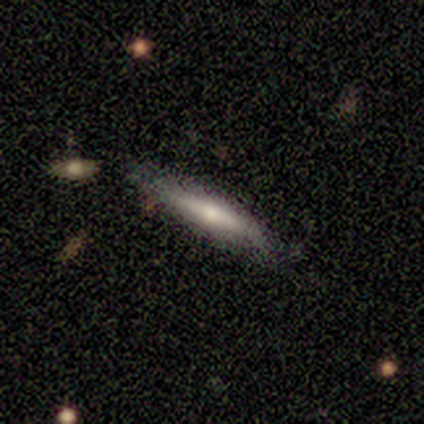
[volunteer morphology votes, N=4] smooth-or-featured: smooth: 100% | featured or disk: 0% | star or artifact: 0%
  how-rounded: cigar-shaped: 75% | in between: 25% | round: 0%
  merging: none: 100% | minor disturbance: 0% | major disturbance: 0% | merger: 0%